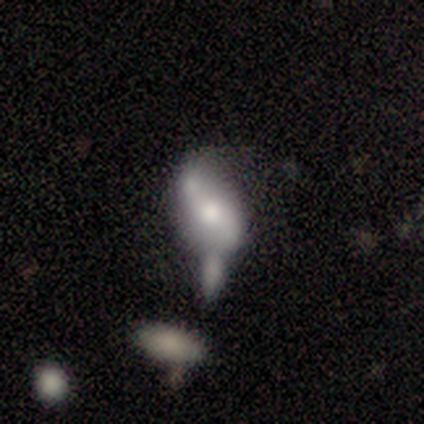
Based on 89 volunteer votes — A featured or disk galaxy (67%) with no bar (62%), 2 (91%) loose (79%) spiral arms (61%) and a moderate central bulge (46%).

Vote fractions:
- Smooth or featured? featured or disk: 67% / smooth: 27% / star or artifact: 6%
- Edge-on disk? no: 93% / yes: 7%
- Bar? no: 62% / weak: 25% / strong: 12%
- Spiral arms? yes: 61% / no: 39%
- Spiral winding? loose: 79% / tight: 12% / medium: 9%
- Spiral arm count? 2: 91% / can't tell: 6% / 1: 3% / 3: 0% / 4: 0% / more than 4: 0%
- Bulge size? moderate: 46% / large: 27% / small: 23% / none: 4% / dominant: 0%
- Merging? merger: 45% / minor disturbance: 24% / none: 15% / major disturbance: 15%